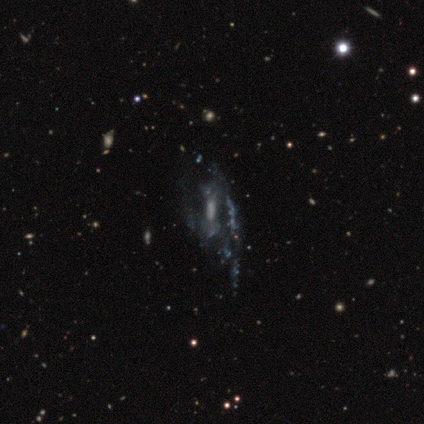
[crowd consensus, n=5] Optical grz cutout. It shows a featured or disk galaxy (100%) with a strong bar (75%), loose (67%) spiral arms (75%) and no central bulge (75%). Merging: major disturbance (60%).